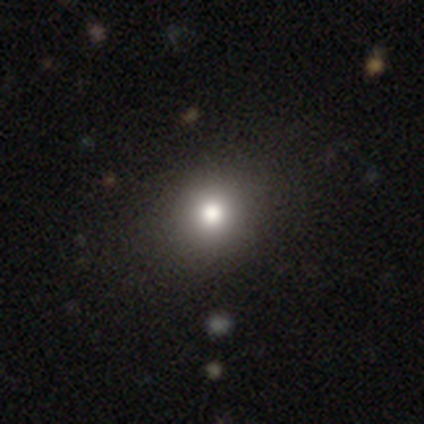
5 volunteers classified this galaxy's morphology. This is likely a star or artifact rather than a galaxy (60%).